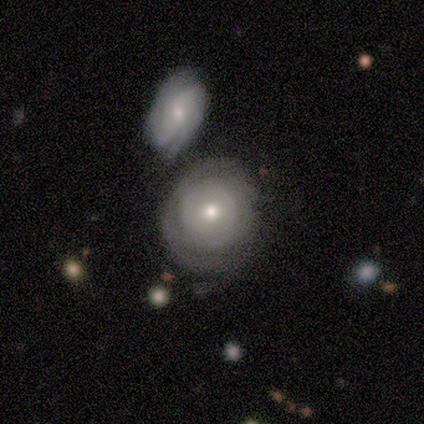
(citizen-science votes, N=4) Smooth or featured?
  - featured or disk: 75% *
  - smooth: 25%
  - star or artifact: 0%
Edge-on disk?
  - no: 67% *
  - yes: 33%
Bar?
  - no: 100% *
  - strong: 0%
  - weak: 0%
Spiral arms?
  - yes: 50% * (tied)
  - no: 50% * (tied)
Spiral winding?
  - tight: 100% *
  - medium: 0%
  - loose: 0%
Spiral arm count?
  - can't tell: 100% *
  - 1: 0%
  - 2: 0%
  - 3: 0%
  - 4: 0%
  - more than 4: 0%
Bulge size?
  - moderate: 100% *
  - dominant: 0%
  - large: 0%
  - small: 0%
  - none: 0%
Merging?
  - none: 50% *
  - major disturbance: 25%
  - merger: 25%
  - minor disturbance: 0%